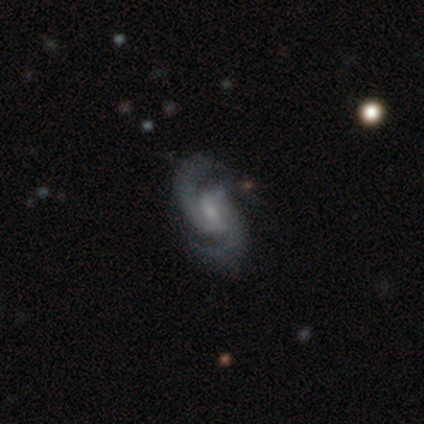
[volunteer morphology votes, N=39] Overall: featured or disk (90%). Edge-on disk: no (97%). Bar: weak (56%; no 35%). Spiral arms: yes (100%). Spiral arm count: 2 (79%). Spiral winding: medium (47%; tight 35%). Bulge size: moderate (44%, tied with small). Merging: none (81%).